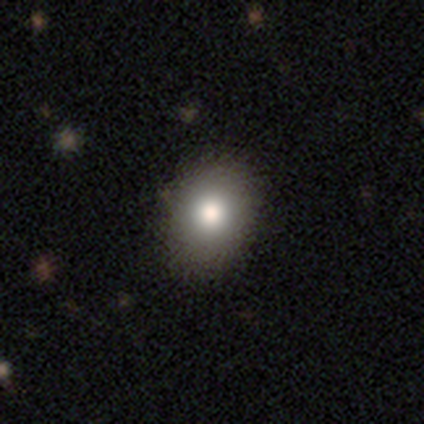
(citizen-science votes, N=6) This appears to be a smooth galaxy with no disk features (67%) that is in between round and cigar-shaped (100%). Merging: none (60%).